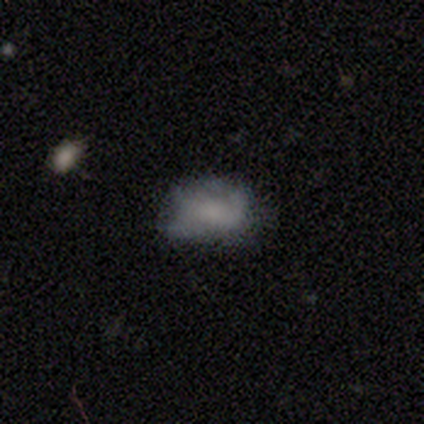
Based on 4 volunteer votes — This appears to be a smooth galaxy with no disk features (75%) that is in between round and cigar-shaped (67%). Merging: minor disturbance (75%).